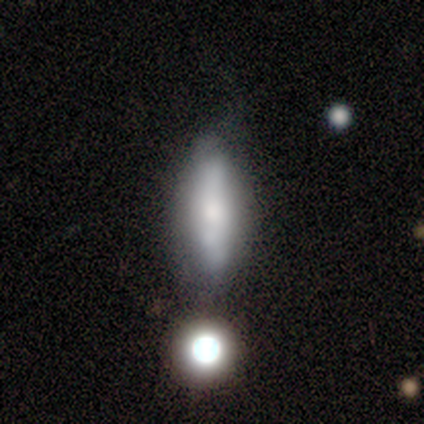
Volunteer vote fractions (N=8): A smooth galaxy with no disk features (62%) that is cigar-shaped (60%). Merging: none (50%).